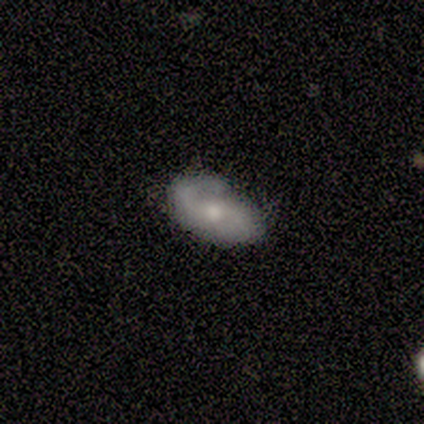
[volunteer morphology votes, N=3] Smooth or featured? featured or disk (67%)
Edge-on disk? no (100%)
Bar? weak (100%)
Spiral arms? yes (100%)
Spiral winding? medium (50%, tied with loose)
Spiral arm count? 2 (100%)
Bulge size? moderate (50%, tied with small)
Merging? none (100%)